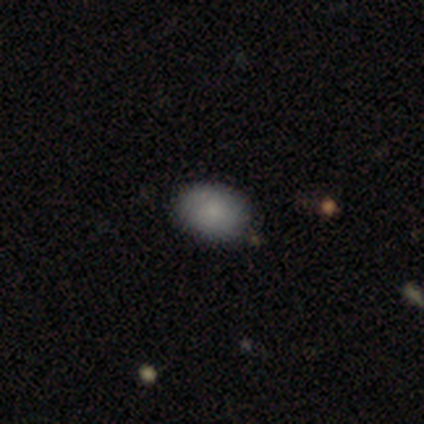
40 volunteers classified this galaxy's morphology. Smooth or featured? 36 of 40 (90%) said smooth. How rounded? 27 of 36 (75%) said in between. Merging? 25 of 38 (66%) said none.